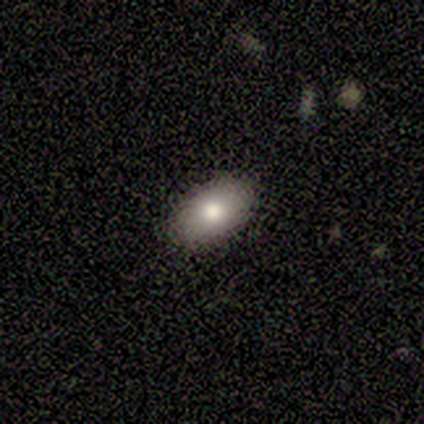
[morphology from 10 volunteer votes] smooth-or-featured: smooth: 90% | star or artifact: 10% | featured or disk: 0%
  how-rounded: in between: 100% | round: 0% | cigar-shaped: 0%
  merging: none: 78% | minor disturbance: 22% | major disturbance: 0% | merger: 0%